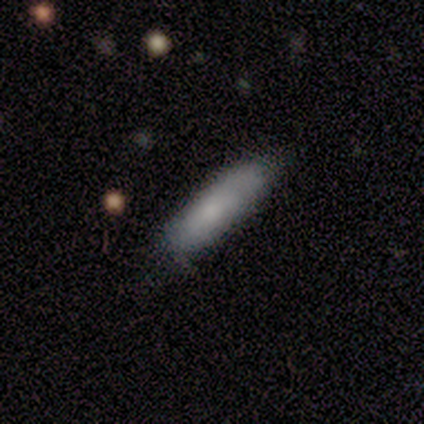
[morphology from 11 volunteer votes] This is possibly a smooth galaxy (55%). How rounded: clearly cigar-shaped (83%). Merging: clearly none (89%).